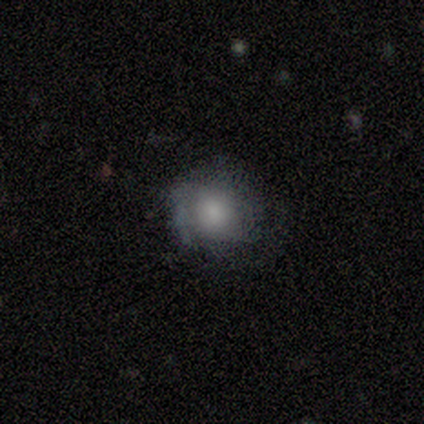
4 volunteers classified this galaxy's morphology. Smooth or featured? smooth (50%)
How rounded? in between (100%)
Merging? none (100%)